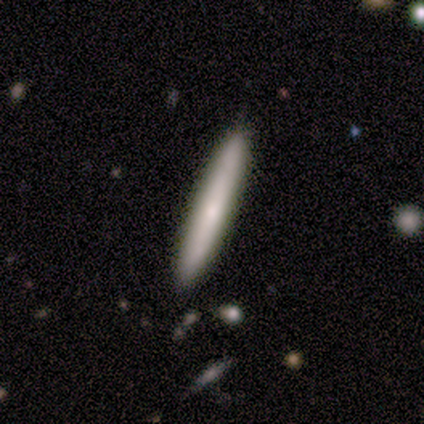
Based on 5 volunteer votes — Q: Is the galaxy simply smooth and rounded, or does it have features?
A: featured or disk — 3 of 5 (60%).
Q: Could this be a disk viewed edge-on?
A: yes — 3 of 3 (100%).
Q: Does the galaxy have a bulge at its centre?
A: rounded — 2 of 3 (67%).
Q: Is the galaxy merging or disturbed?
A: none — 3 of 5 (60%).